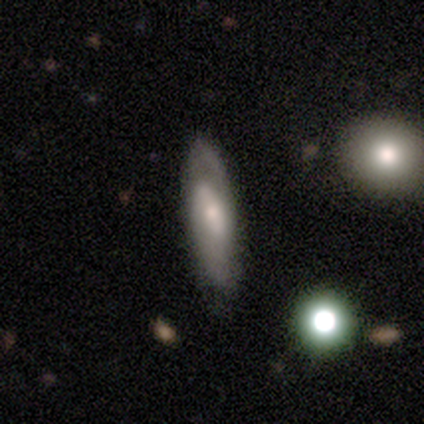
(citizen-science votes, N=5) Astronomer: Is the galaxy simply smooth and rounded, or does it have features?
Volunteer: featured or disk — 60% (runner-up: smooth, 40%).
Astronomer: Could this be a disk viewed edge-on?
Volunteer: no — 100%.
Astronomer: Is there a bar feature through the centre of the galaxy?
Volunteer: weak — 67%.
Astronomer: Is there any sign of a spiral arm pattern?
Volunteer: yes — 100%.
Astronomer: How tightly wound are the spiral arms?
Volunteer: tight — 67%.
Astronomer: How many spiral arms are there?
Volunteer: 2 — 67%.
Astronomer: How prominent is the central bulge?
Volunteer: small — 100%.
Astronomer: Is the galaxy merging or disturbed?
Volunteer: none — 60% (runner-up: major disturbance, 40%).